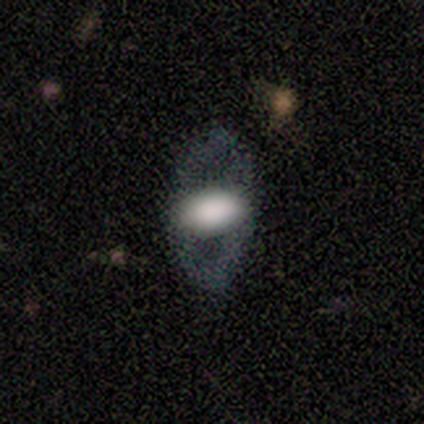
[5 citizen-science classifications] smooth-or-featured: smooth: 60% | featured or disk: 40% | star or artifact: 0%
  how-rounded: in between: 100% | round: 0% | cigar-shaped: 0%
  merging: none: 80% | minor disturbance: 20% | major disturbance: 0% | merger: 0%